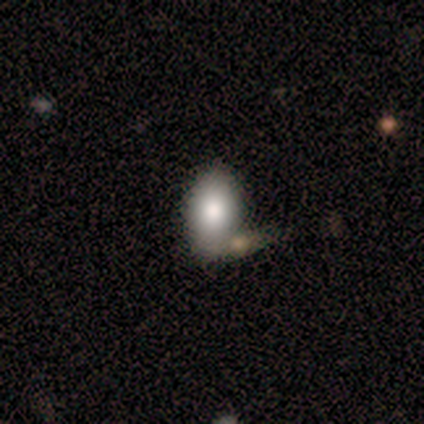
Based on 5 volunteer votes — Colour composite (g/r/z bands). It shows a smooth galaxy with no disk features (80%) that is in between round and cigar-shaped (100%). Merging: merger (50%).